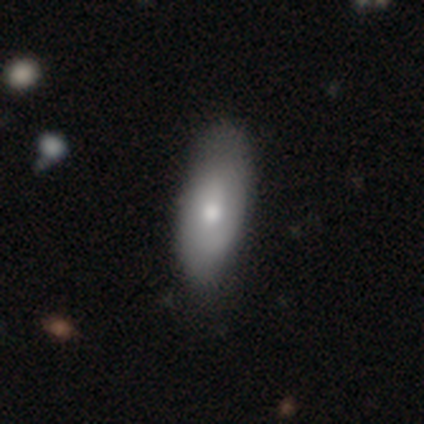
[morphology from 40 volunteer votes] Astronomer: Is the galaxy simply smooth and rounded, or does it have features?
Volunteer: smooth — 62%.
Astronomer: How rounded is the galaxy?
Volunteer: in between — 84%.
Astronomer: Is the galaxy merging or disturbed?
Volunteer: none — 72%.